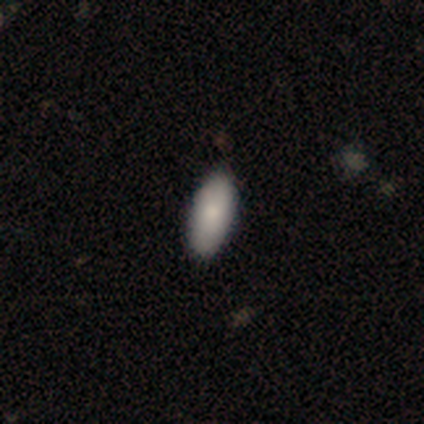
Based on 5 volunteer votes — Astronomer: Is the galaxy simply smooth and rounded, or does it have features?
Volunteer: smooth — 80%.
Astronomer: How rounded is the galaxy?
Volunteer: in between — 100%.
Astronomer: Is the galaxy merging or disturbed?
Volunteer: none — 100%.